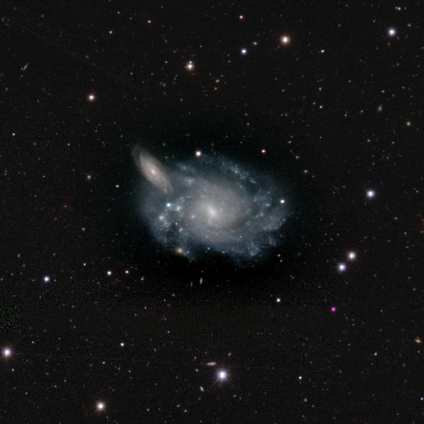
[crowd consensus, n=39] Smooth or featured? 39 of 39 (100%) said featured or disk. Edge-on disk? 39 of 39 (100%) said no. Bar? 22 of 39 (56%) said no. Spiral arms? 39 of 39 (100%) said yes. Spiral winding? 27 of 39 (69%) said tight. Spiral arm count? 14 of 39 (36%, tied with can't tell) said more than 4. Bulge size? 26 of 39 (67%) said small. Merging? 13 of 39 (33%) said merger.